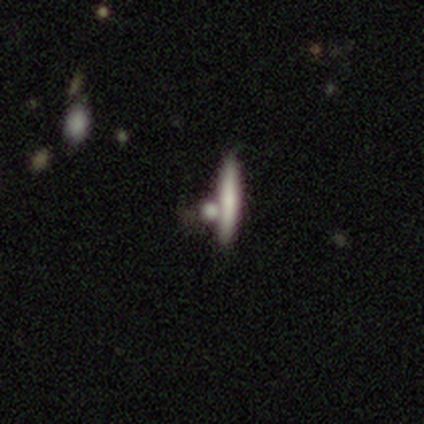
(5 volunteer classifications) A smooth galaxy with no disk features (100%) that is cigar-shaped (100%).

Vote fractions:
- Smooth or featured? smooth: 100% / featured or disk: 0% / star or artifact: 0%
- How rounded? cigar-shaped: 100% / round: 0% / in between: 0%
- Merging? none: 60% / merger: 40% / minor disturbance: 0% / major disturbance: 0%